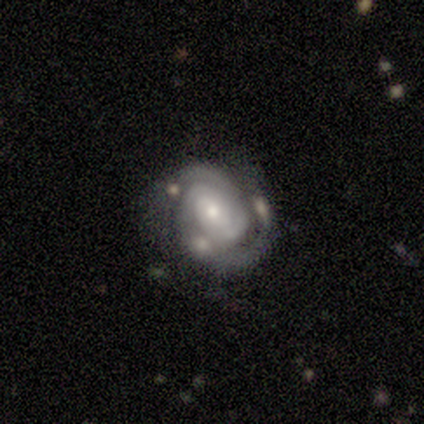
This appears to be a featured or disk galaxy (100%) with no bar (100%), 2 (60%) tight (80%) spiral arms (100%) and a small central bulge (60%). Merging: none (80%).